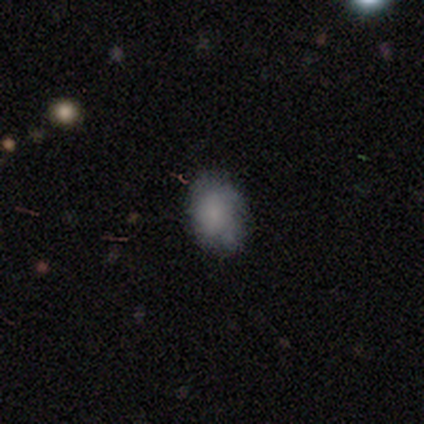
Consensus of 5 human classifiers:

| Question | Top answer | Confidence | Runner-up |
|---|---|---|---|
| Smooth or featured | smooth | 100% | — |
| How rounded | in between | 60% | round (40%) |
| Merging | none | 60% | minor disturbance (20%) |